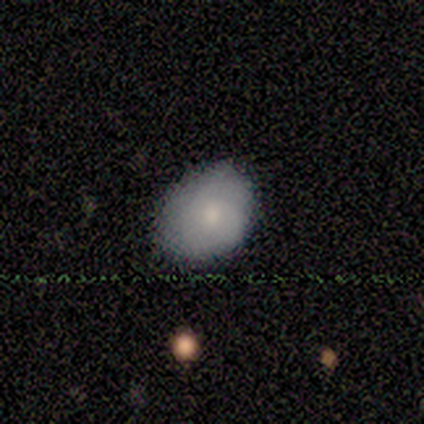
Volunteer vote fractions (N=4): smooth 50% (tied), featured or disk 50% (tied), star or artifact 0%. Down the decision tree: how rounded — in between (100%); merging — none (100%).